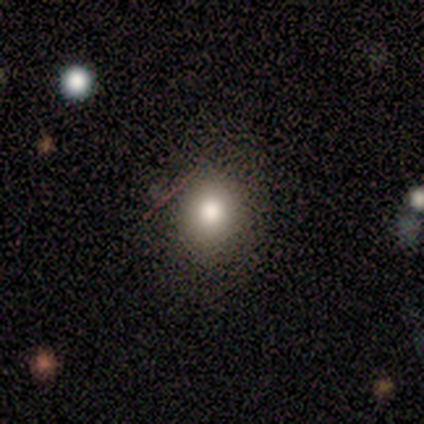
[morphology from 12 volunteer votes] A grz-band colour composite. It shows a smooth galaxy with no disk features (58%) that is round (57%). Merging: none (100%).